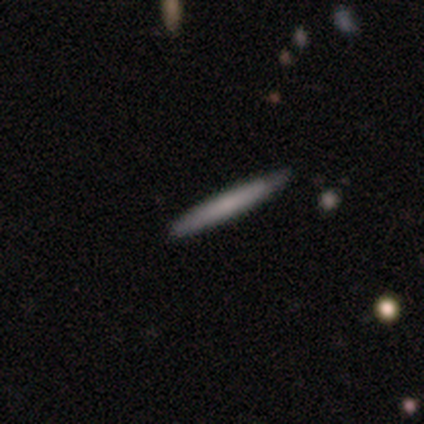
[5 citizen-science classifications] Smooth or featured?
  - smooth: 80% *
  - featured or disk: 20%
  - star or artifact: 0%
How rounded?
  - cigar-shaped: 100% *
  - round: 0%
  - in between: 0%
Merging?
  - none: 80% *
  - minor disturbance: 20%
  - major disturbance: 0%
  - merger: 0%